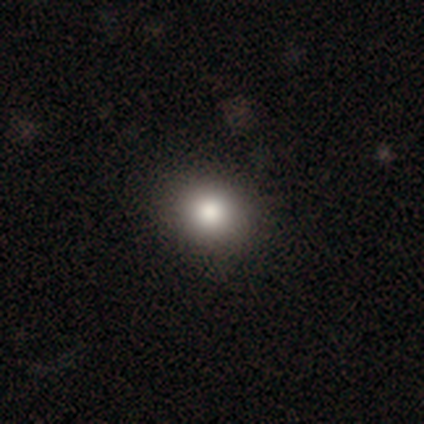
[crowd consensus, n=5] Q: Smooth or featured?
A: smooth (100%)
Q: How rounded?
A: round (80%); runner-up: in between (20%)
Q: Merging?
A: none (80%); runner-up: major disturbance (20%)